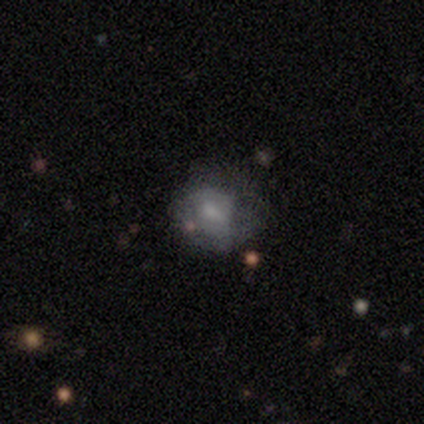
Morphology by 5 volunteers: Overall: featured or disk (60%; smooth 40%). Edge-on disk: no (100%). Bar: weak (100%). Spiral arms: yes (67%; no 33%). Spiral arm count: 2 (50%, tied with can't tell). Spiral winding: tight (50%, tied with loose). Bulge size: small (67%; moderate 33%). Merging: minor disturbance (60%; none 20%).